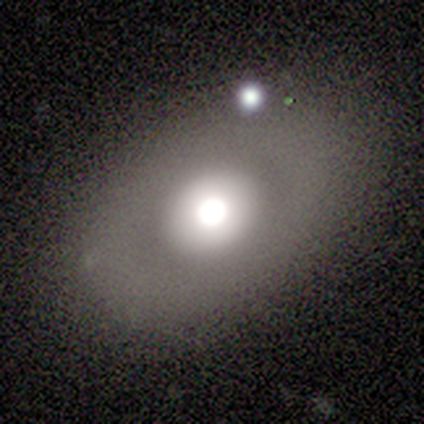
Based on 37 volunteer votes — Smooth or featured? smooth (54%)
How rounded? in between (85%)
Merging? none (74%)